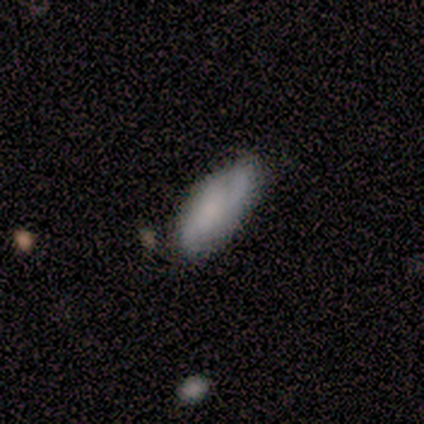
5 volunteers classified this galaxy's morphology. Smooth or featured?
  - smooth: 100% *
  - featured or disk: 0%
  - star or artifact: 0%
How rounded?
  - in between: 80% *
  - cigar-shaped: 20%
  - round: 0%
Merging?
  - minor disturbance: 60% *
  - none: 40%
  - major disturbance: 0%
  - merger: 0%